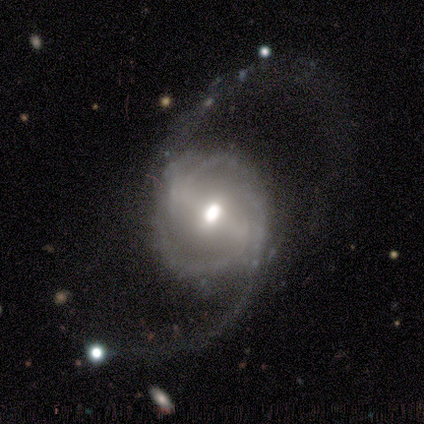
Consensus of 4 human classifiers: Volunteers were most divided on "smooth or featured" (2-way tie): featured or disk: 50%, star or artifact: 50%, smooth: 0%; "bar" (2-way tie): strong: 50%, weak: 50%, no: 0%; "bulge size" (2-way tie): moderate: 50%, small: 50%, dominant: 0%, large: 0%, none: 0%; "merging" (2-way tie): none: 50%, major disturbance: 50%, minor disturbance: 0%, merger: 0%. More confident: edge-on disk — no (100%); spiral arms — yes (100%); spiral winding — tight (100%); spiral arm count — 2 (100%).